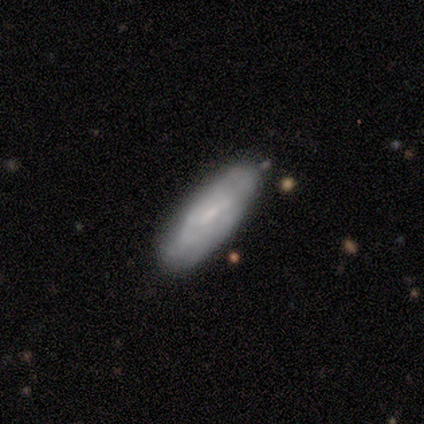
This appears to be a featured or disk galaxy (60%) viewed edge-on (67%) with a boxy central bulge (50%, tied with none). Merging: none (60%).